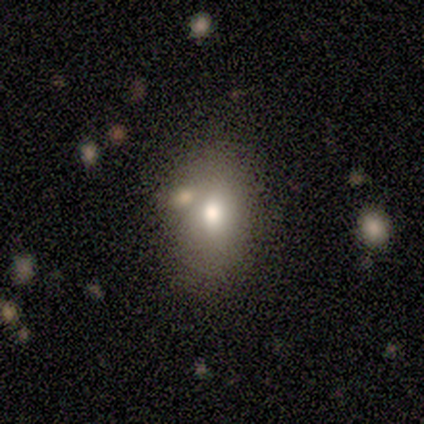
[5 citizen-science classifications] smooth 100%, featured or disk 0%, star or artifact 0%. Down the decision tree: how rounded — in between (100%); merging — none (60%).